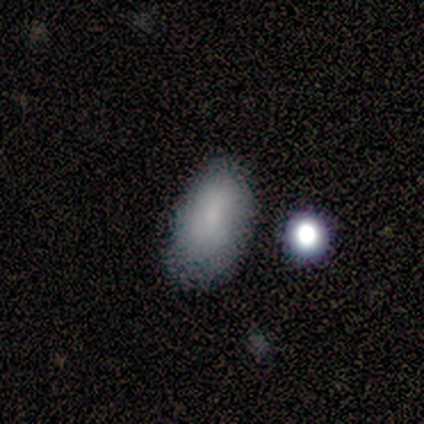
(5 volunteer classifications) Morphology: type=smooth (60%); roundness=in between (100%); merging=minor disturbance (75%).